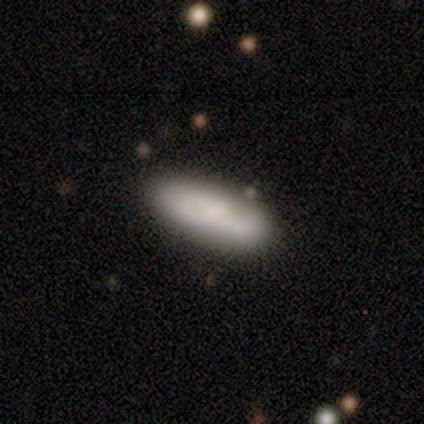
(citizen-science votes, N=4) Smooth or featured? 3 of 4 (75%) said smooth. How rounded? 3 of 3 (100%) said in between. Merging? 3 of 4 (75%) said none.